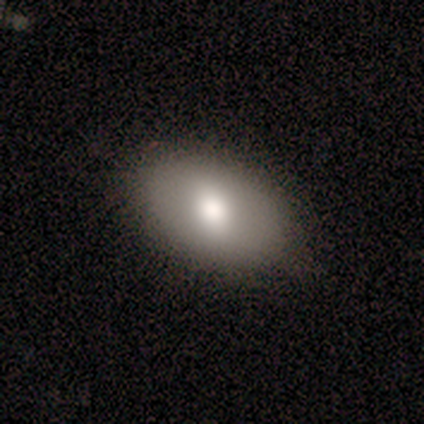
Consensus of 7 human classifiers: Overall: smooth (71%). How rounded: in between (100%). Merging: none (57%; minor disturbance 43%).